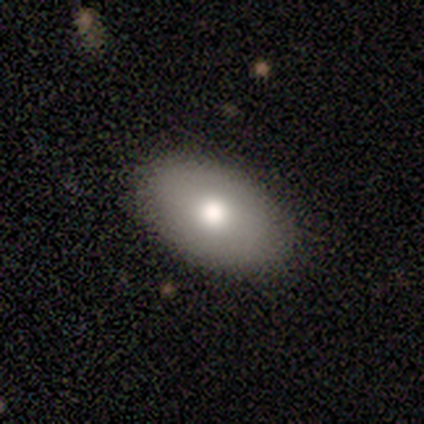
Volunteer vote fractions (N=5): A smooth galaxy with no disk features (100%) that is in between round and cigar-shaped (100%).

Vote fractions:
- Smooth or featured? smooth: 100% / featured or disk: 0% / star or artifact: 0%
- How rounded? in between: 100% / round: 0% / cigar-shaped: 0%
- Merging? none: 100% / minor disturbance: 0% / major disturbance: 0% / merger: 0%